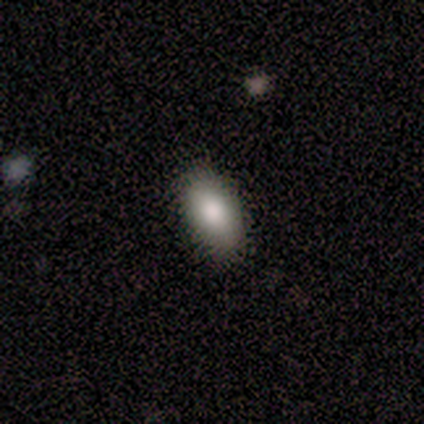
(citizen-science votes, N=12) Smooth or featured?
  - smooth: 100% *
  - featured or disk: 0%
  - star or artifact: 0%
How rounded?
  - in between: 100% *
  - round: 0%
  - cigar-shaped: 0%
Merging?
  - none: 92% *
  - minor disturbance: 8%
  - major disturbance: 0%
  - merger: 0%